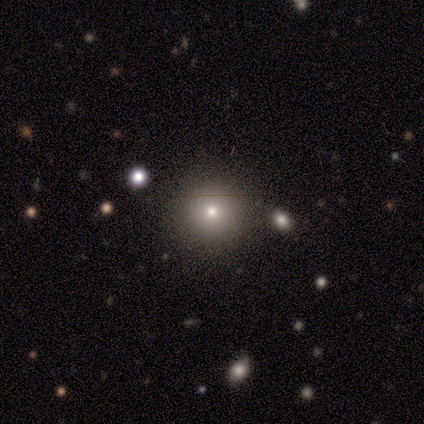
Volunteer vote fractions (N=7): Smooth or featured? 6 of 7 (86%) said smooth. How rounded? 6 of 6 (100%) said round. Merging? 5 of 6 (83%) said none.